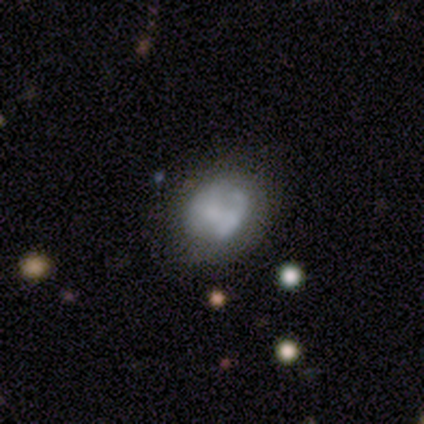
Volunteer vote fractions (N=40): Smooth or featured? 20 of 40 (50%) said smooth. How rounded? 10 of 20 (50%, tied with in between) said round. Merging? 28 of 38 (74%) said none.